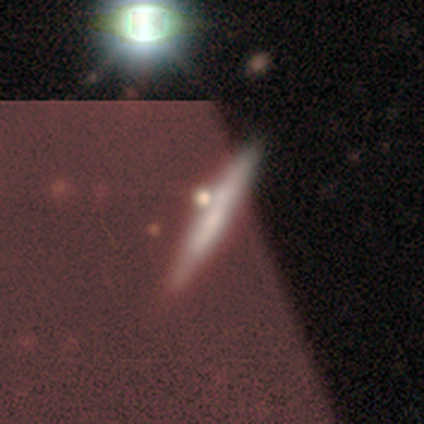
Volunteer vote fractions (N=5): Overall: featured or disk (60%; smooth 40%). Edge-on disk: yes (100%). Edge-on bulge: none (67%; rounded 33%). Merging: none (40%, tied with minor disturbance).